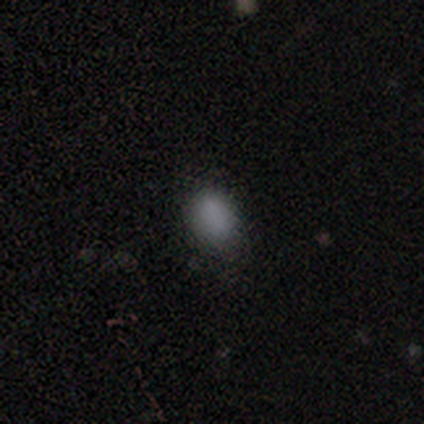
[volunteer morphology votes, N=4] smooth-or-featured: smooth: 100% | featured or disk: 0% | star or artifact: 0%
  how-rounded: round: 50% (tied) | in between: 50% (tied) | cigar-shaped: 0%
  merging: minor disturbance: 100% | none: 0% | major disturbance: 0% | merger: 0%